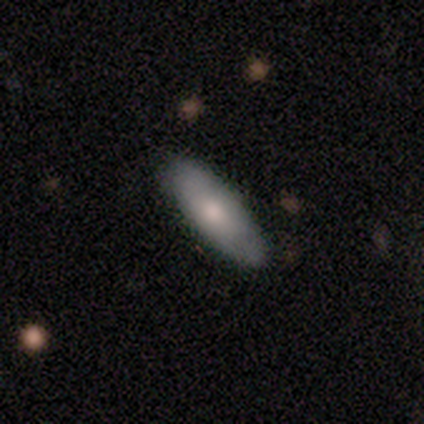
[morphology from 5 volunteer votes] Smooth or featured? 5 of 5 (100%) said smooth. How rounded? 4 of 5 (80%) said in between. Merging? 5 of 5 (100%) said none.